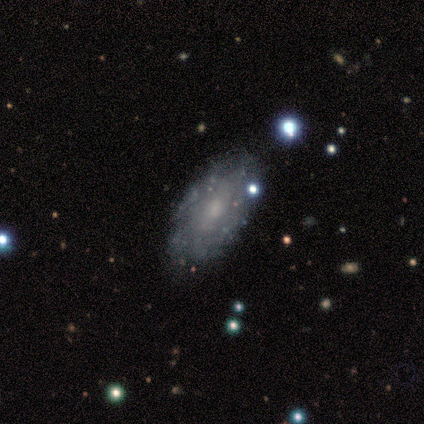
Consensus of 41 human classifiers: Smooth or featured? featured or disk (71%)
Edge-on disk? no (97%)
Bar? no (75%)
Spiral arms? no (71%)
Bulge size? moderate (39%)
Merging? none (77%)